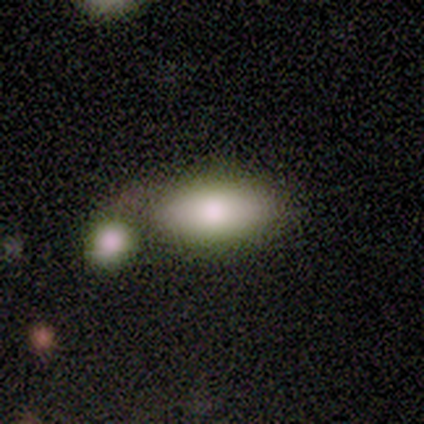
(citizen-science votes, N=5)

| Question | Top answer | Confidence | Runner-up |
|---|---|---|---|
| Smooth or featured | smooth | 80% | featured or disk (20%) |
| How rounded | in between | 100% | — |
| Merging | none | 40% | tied: minor disturbance (40%) |